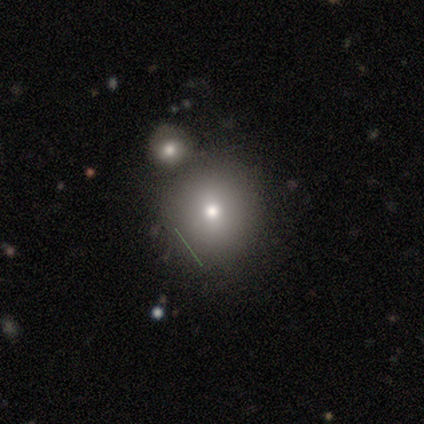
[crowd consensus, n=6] Overall: star or artifact (50%; smooth 33%).